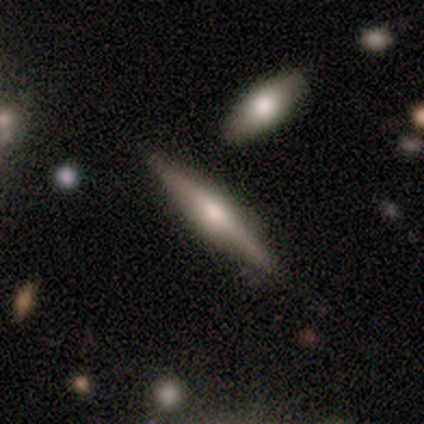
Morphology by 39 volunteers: Smooth or featured: featured or disk — 69% (smooth — 23%)
Edge-on disk: yes — 96% (no — 4%)
Edge-on bulge: rounded — 85% (boxy — 8%)
Merging: none — 78% (minor disturbance — 22%)